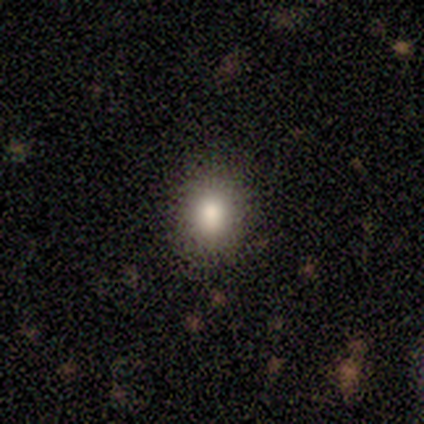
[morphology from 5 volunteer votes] Overall: smooth (100%). How rounded: round (80%). Merging: none (100%).